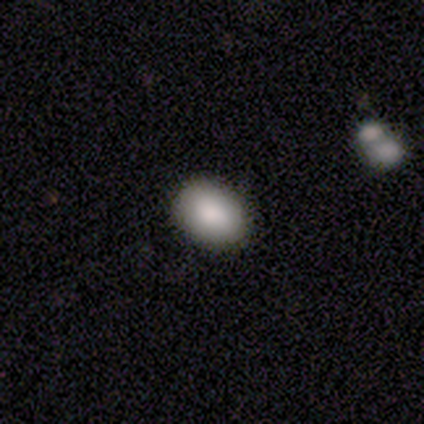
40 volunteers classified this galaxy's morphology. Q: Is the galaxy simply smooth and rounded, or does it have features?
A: smooth — 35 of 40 (88%).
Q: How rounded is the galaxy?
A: in between — 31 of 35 (89%).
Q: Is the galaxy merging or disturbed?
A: none — 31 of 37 (84%).